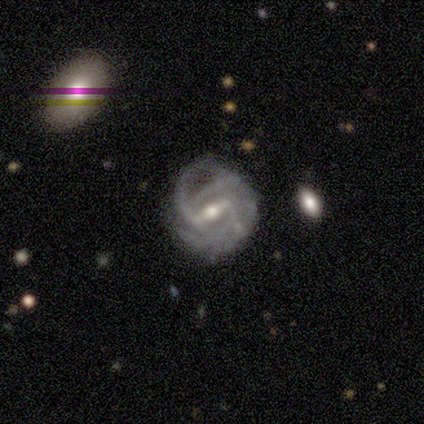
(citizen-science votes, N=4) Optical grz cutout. It shows a featured or disk galaxy (100%) with a strong bar (75%), medium (50%) spiral arms (100%) and a moderate central bulge (100%). Merging: none (75%).